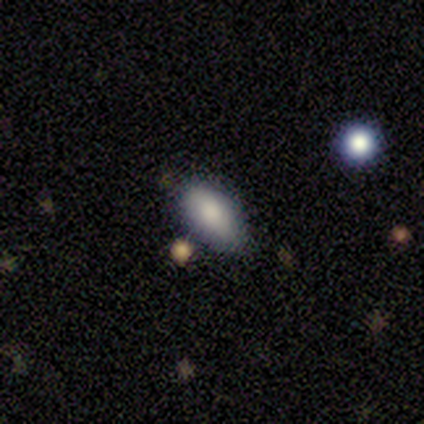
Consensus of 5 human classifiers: smooth 80%, star or artifact 20%, featured or disk 0%. Down the decision tree: how rounded — in between (100%); merging — none (100%).